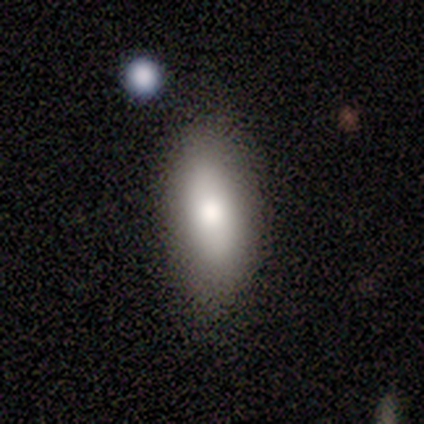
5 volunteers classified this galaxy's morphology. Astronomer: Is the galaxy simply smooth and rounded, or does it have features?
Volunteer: smooth — 80%.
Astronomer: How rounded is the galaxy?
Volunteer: in between — 75%.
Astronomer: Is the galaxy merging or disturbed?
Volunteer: none — 80%.